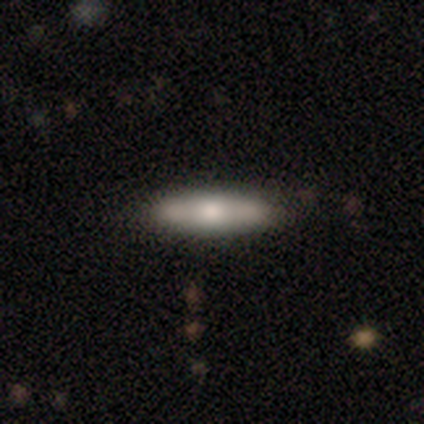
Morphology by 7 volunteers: A smooth galaxy with no disk features (57%) that is in between round and cigar-shaped (50%, tied with cigar-shaped).

Vote fractions:
- Smooth or featured? smooth: 57% / featured or disk: 29% / star or artifact: 14%
- How rounded? in between: 50% (tied) / cigar-shaped: 50% (tied) / round: 0%
- Merging? none: 67% / minor disturbance: 17% / major disturbance: 17% / merger: 0%